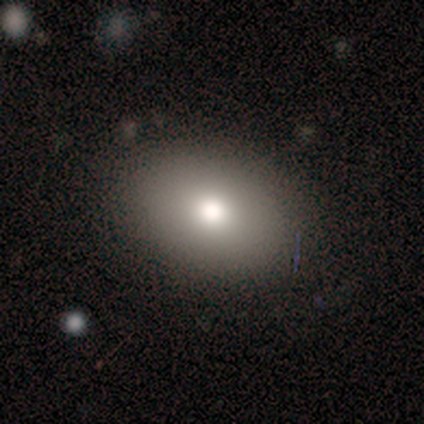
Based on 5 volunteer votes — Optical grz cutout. It shows a smooth galaxy with no disk features (60%) that is in between round and cigar-shaped (67%). Merging: none (100%).